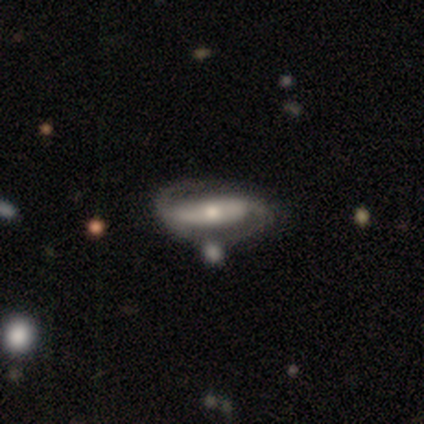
A featured or disk galaxy (87%) with a strong bar (39%), 2 (85%) tight (44%) spiral arms (87%) and a moderate central bulge (61%). Merging: none (55%).